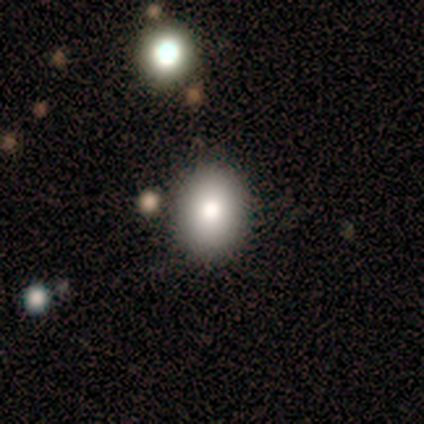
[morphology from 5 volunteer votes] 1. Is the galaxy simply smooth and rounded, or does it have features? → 100% smooth, 0% featured or disk, 0% star or artifact.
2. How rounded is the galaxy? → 60% in between, 40% round, 0% cigar-shaped.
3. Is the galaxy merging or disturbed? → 100% none, 0% minor disturbance, 0% major disturbance, 0% merger.